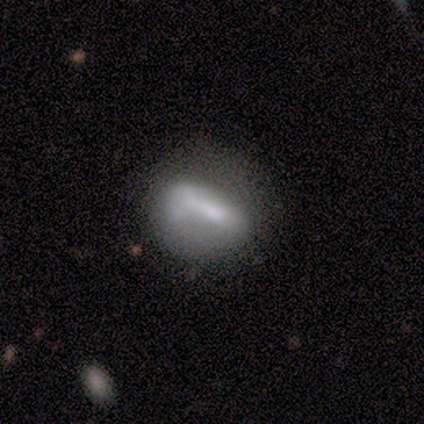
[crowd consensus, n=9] Q: Smooth or featured?
A: smooth (67%); runner-up: featured or disk (33%)
Q: How rounded?
A: in between (83%); runner-up: round (17%)
Q: Merging?
A: none (44%); runner-up: major disturbance (33%)